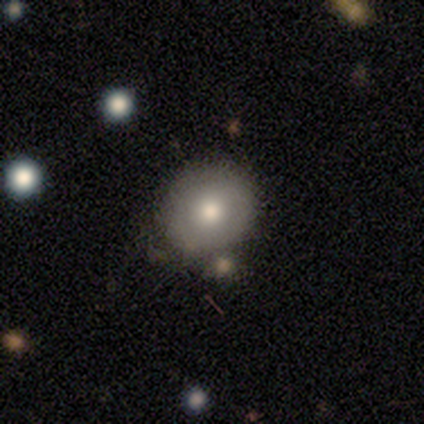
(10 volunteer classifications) Morphology: type=smooth (50%); roundness=round (100%); merging=none (78%).